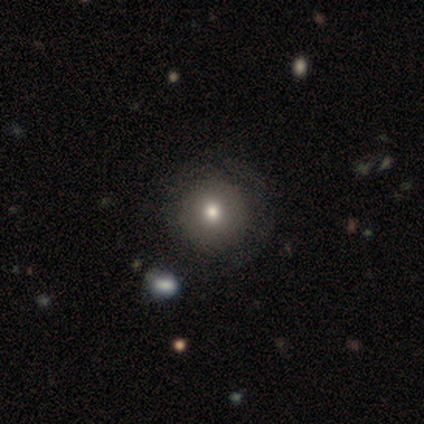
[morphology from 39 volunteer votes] Smooth or featured: smooth — 62% (featured or disk — 33%)
How rounded: round — 96% (in between — 4%)
Merging: none — 51% (minor disturbance — 16%)